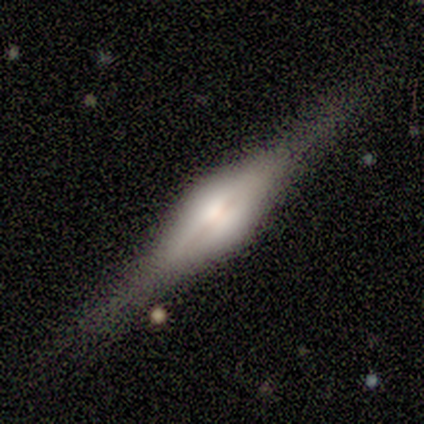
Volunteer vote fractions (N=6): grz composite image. It shows a featured or disk galaxy (100%) viewed edge-on (100%) with a rounded central bulge (100%). Merging: none (100%).